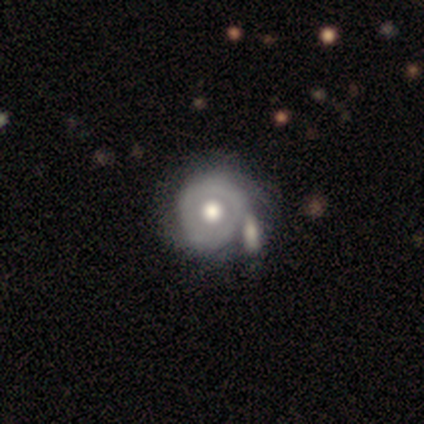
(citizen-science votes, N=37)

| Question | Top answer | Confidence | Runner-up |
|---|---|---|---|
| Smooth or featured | featured or disk | 68% | smooth (27%) |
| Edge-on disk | no | 96% | yes (4%) |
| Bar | no | 92% | weak (8%) |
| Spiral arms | no | 79% | yes (21%) |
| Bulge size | moderate | 46% | large (42%) |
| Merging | none | 43% | merger (34%) |